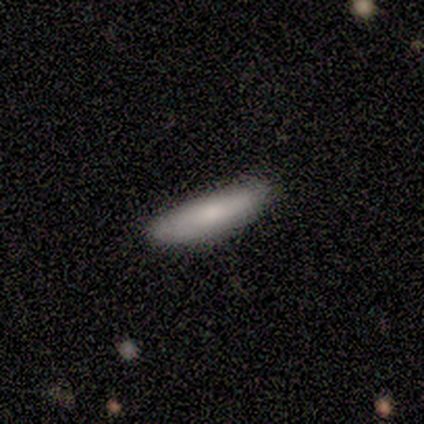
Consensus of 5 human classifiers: Volunteers were most divided on "how rounded": cigar-shaped: 75%, in between: 25%, round: 0%. More confident: smooth or featured — smooth (80%); merging — none (80%).